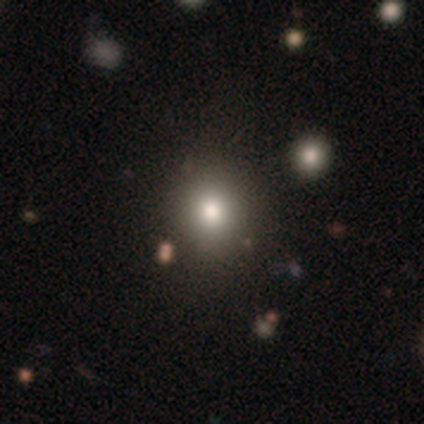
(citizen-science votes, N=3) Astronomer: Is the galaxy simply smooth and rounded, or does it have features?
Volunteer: smooth — 67%.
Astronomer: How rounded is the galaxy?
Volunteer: round — 100%.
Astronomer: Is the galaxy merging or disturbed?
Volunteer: none — 100%.